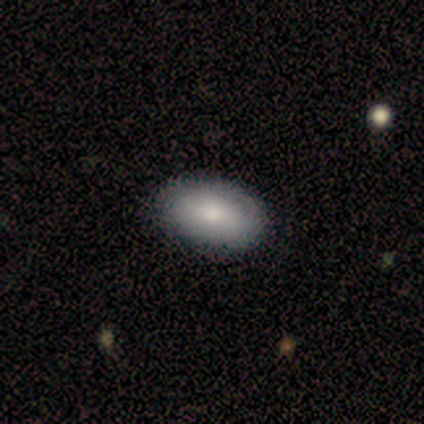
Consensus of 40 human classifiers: Smooth or featured? 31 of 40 (78%) said smooth. How rounded? 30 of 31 (97%) said in between. Merging? 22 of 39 (56%) said none.